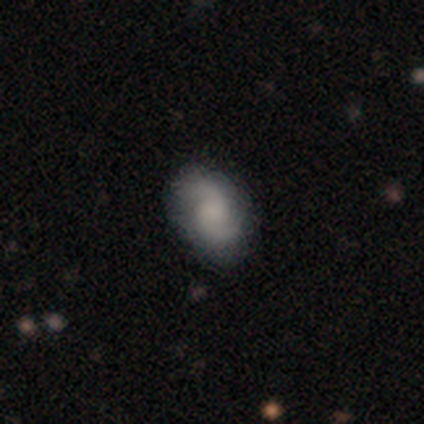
Q: Smooth or featured?
A: featured or disk (60%); runner-up: smooth (40%)
Q: Edge-on disk?
A: no (100%)
Q: Bar?
A: no (100%)
Q: Spiral arms?
A: yes (100%)
Q: Spiral winding?
A: tight (33%); tied with: medium (33%); loose (33%)
Q: Spiral arm count?
A: 2 (100%)
Q: Bulge size?
A: moderate (67%); runner-up: small (33%)
Q: Merging?
A: none (80%); runner-up: major disturbance (20%)